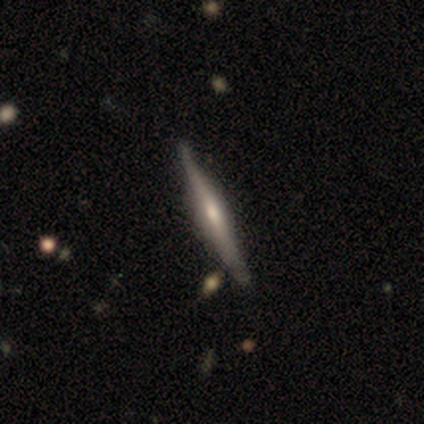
smooth-or-featured: featured or disk: 75% | smooth: 22% | star or artifact: 2%
  disk-edge-on: yes: 100% | no: 0%
    edge-on-bulge: rounded: 73% | boxy: 17% | none: 10%
  merging: none: 77% | minor disturbance: 15% | merger: 5% | major disturbance: 3%